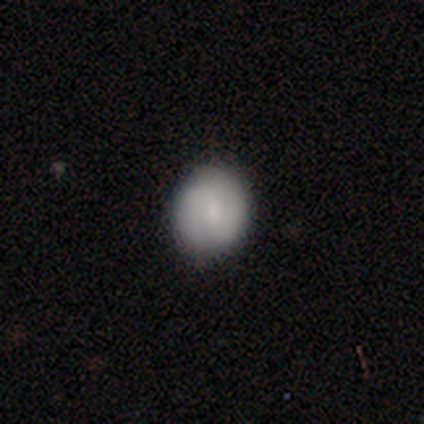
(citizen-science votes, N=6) A smooth galaxy with no disk features (67%) that is round (75%).

Vote fractions:
- Smooth or featured? smooth: 67% / featured or disk: 33% / star or artifact: 0%
- How rounded? round: 75% / in between: 25% / cigar-shaped: 0%
- Merging? none: 83% / minor disturbance: 17% / major disturbance: 0% / merger: 0%